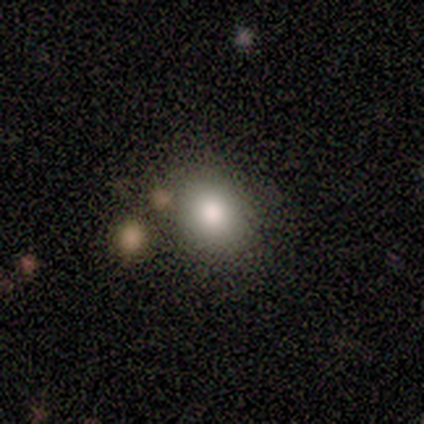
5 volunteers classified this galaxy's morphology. A smooth galaxy with no disk features (100%) that is round (100%).

Vote fractions:
- Smooth or featured? smooth: 100% / featured or disk: 0% / star or artifact: 0%
- How rounded? round: 100% / in between: 0% / cigar-shaped: 0%
- Merging? none: 60% / minor disturbance: 20% / merger: 20% / major disturbance: 0%